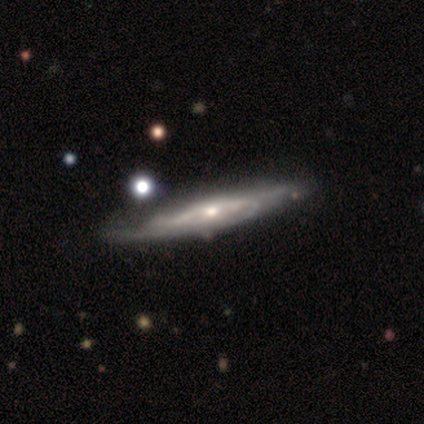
Smooth or featured?
  - featured or disk: 100% *
  - smooth: 0%
  - star or artifact: 0%
Edge-on disk?
  - yes: 60% *
  - no: 40%
Edge-on bulge?
  - rounded: 100% *
  - boxy: 0%
  - none: 0%
Merging?
  - none: 80% *
  - minor disturbance: 20%
  - major disturbance: 0%
  - merger: 0%